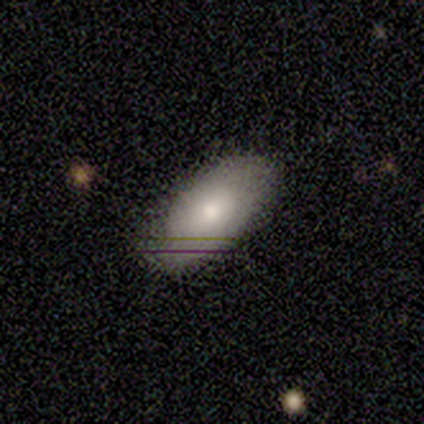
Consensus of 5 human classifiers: Smooth or featured: smooth — 100%
How rounded: in between — 100%
Merging: none — 100%